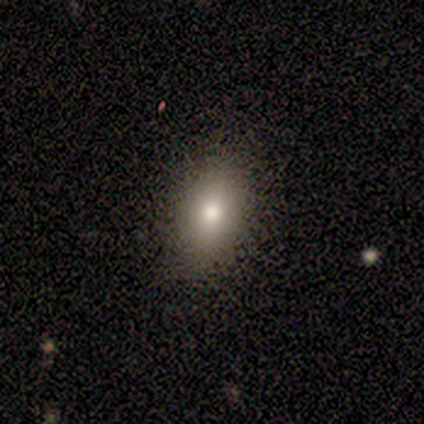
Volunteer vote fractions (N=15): A smooth galaxy with no disk features (73%) that is in between round and cigar-shaped (91%). Merging: none (87%).